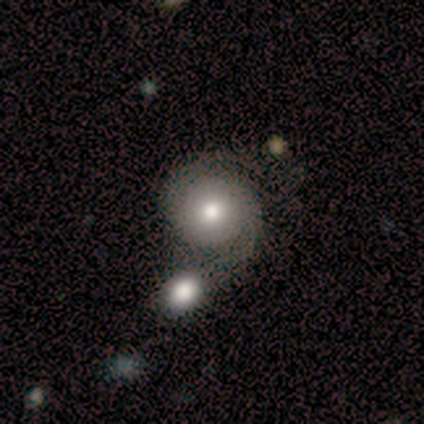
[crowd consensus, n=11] Volunteers were most divided on "bulge size" (2-way tie): large: 38%, moderate: 38%, small: 12%, none: 12%, dominant: 0%. Remaining: edge-on disk — no (100%); bar — no (88%); spiral arms — yes (88%); smooth or featured — featured or disk (73%); spiral arm count — 2 (71%); merging — none (45%); spiral winding — loose (43%).